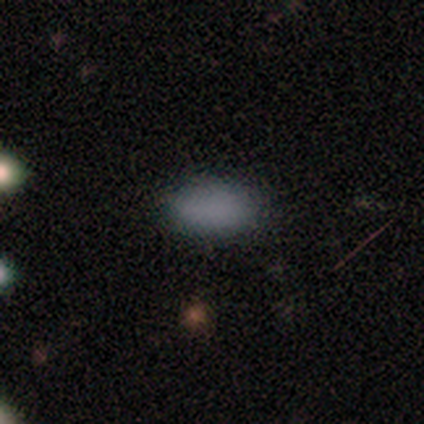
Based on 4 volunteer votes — Morphology: type=smooth (100%); roundness=in between (100%); merging=none (75%).